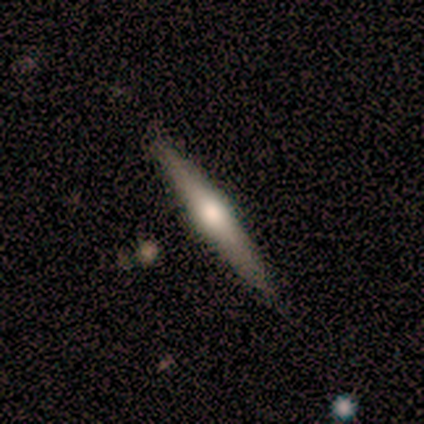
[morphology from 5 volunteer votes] smooth_or_featured: featured or disk (p=0.60) [alt: smooth p=0.40]
disk_edge_on: yes (p=1.00)
edge_on_bulge: rounded (p=0.67) [alt: boxy p=0.33]
merging: none (p=0.80) [alt: minor disturbance p=0.20]